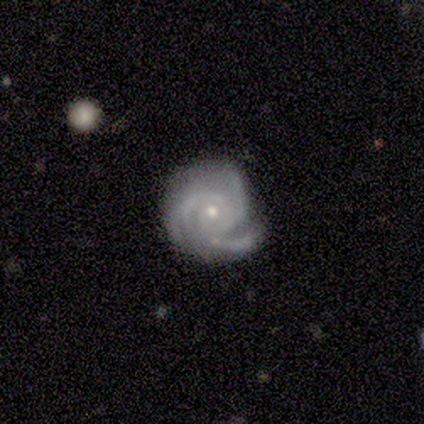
Smooth or featured? featured or disk (100%)
Edge-on disk? no (80%)
Bar? no (100%)
Spiral arms? yes (100%)
Spiral winding? tight (75%)
Spiral arm count? 3 (75%)
Bulge size? small (75%)
Merging? none (40%, tied with minor disturbance)